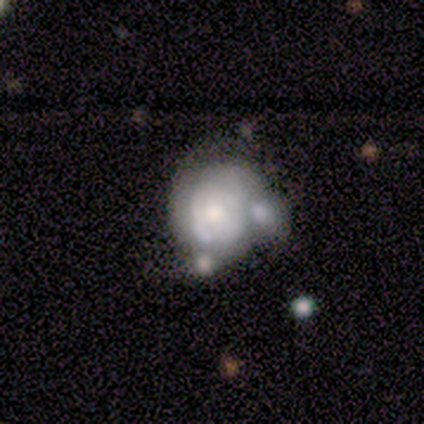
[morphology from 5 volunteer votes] Overall: featured or disk (60%; smooth 20%). Edge-on disk: no (67%; yes 33%). Bar: no (100%). Spiral arms: no (100%). Bulge size: moderate (50%, tied with small). Merging: major disturbance (50%, tied with merger).